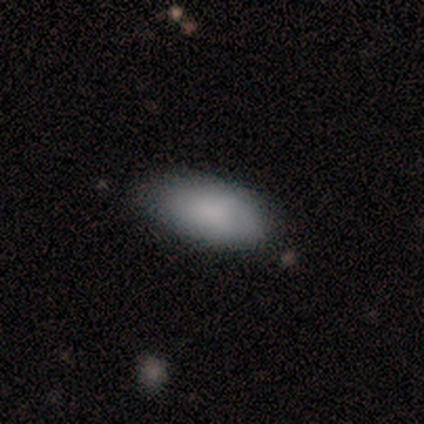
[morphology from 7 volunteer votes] A smooth galaxy with no disk features (100%) that is in between round and cigar-shaped (100%). Merging: none (57%).